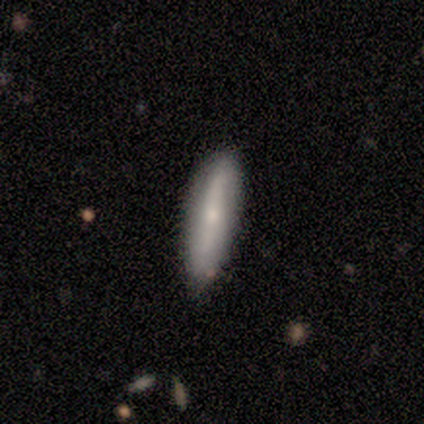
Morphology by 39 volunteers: smooth-or-featured: smooth: 69% | featured or disk: 26% | star or artifact: 5%
  how-rounded: cigar-shaped: 81% | in between: 19% | round: 0%
  merging: none: 84% | minor disturbance: 16% | major disturbance: 0% | merger: 0%